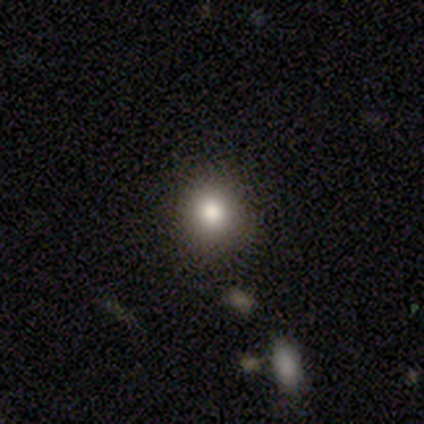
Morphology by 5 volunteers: smooth-or-featured: smooth: 80% | star or artifact: 20% | featured or disk: 0%
  how-rounded: round: 75% | in between: 25% | cigar-shaped: 0%
  merging: none: 100% | minor disturbance: 0% | major disturbance: 0% | merger: 0%